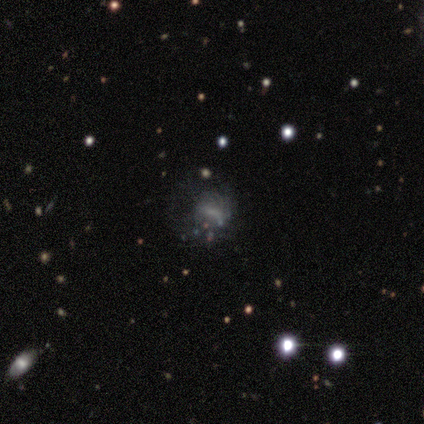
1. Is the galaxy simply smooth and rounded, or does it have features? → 44% featured or disk, 33% smooth, 22% star or artifact.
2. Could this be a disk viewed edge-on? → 100% no, 0% yes.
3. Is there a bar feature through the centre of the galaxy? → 75% no, 25% weak, 0% strong.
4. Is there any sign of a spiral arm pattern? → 100% no, 0% yes.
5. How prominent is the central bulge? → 100% none, 0% dominant, 0% large, 0% moderate, 0% small.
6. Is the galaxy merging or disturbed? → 86% major disturbance, 14% minor disturbance, 0% none, 0% merger.